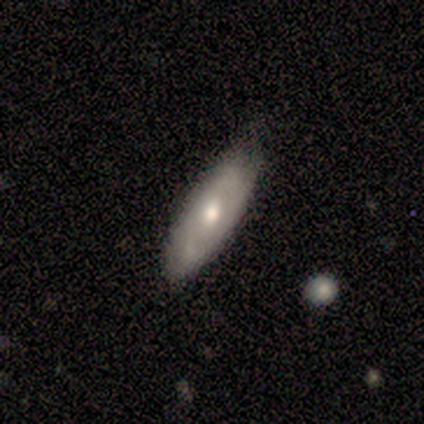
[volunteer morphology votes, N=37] A featured or disk galaxy (51%) with a weak bar (45%, tied with no), no spiral arms (55%) and a moderate central bulge (73%).

Vote fractions:
- Smooth or featured? featured or disk: 51% / smooth: 43% / star or artifact: 5%
- Edge-on disk? no: 58% / yes: 42%
- Bar? weak: 45% (tied) / no: 45% (tied) / strong: 9%
- Spiral arms? no: 55% / yes: 45%
- Bulge size? moderate: 73% / small: 18% / large: 9% / dominant: 0% / none: 0%
- Merging? none: 69% / minor disturbance: 29% / major disturbance: 3% / merger: 0%